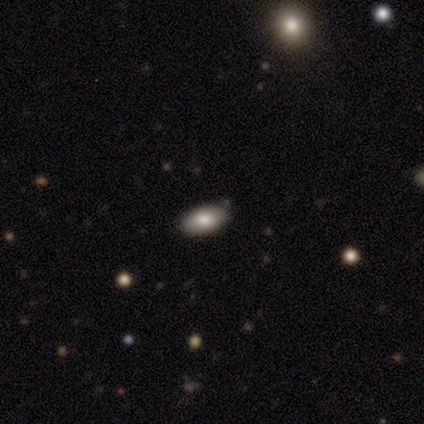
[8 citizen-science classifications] smooth_or_featured: smooth (p=0.62) [alt: star or artifact p=0.25]
how_rounded: in between (p=1.00)
merging: none (p=0.67) [alt: minor disturbance p=0.33]